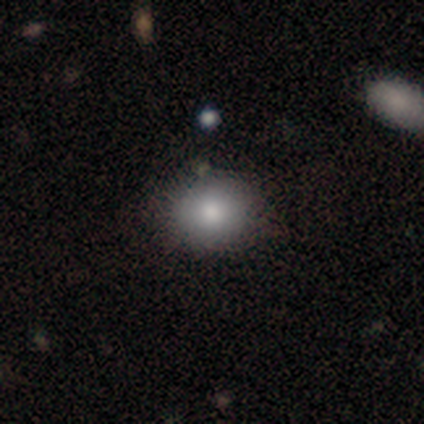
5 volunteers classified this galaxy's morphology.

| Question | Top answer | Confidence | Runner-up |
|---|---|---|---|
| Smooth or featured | smooth | 100% | — |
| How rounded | round | 80% | in between (20%) |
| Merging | none | 100% | — |